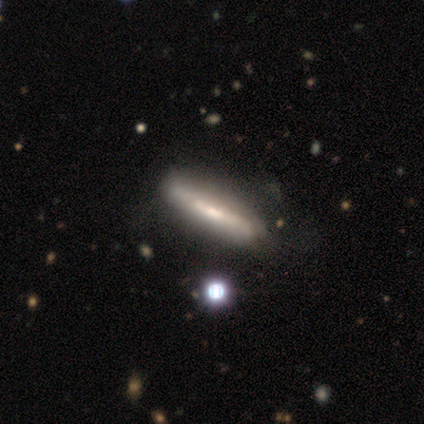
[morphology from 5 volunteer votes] Smooth or featured: featured or disk — 60% (smooth — 40%)
Edge-on disk: yes — 67% (no — 33%)
Edge-on bulge: none — 100%
Merging: none — 60% (minor disturbance — 20%)